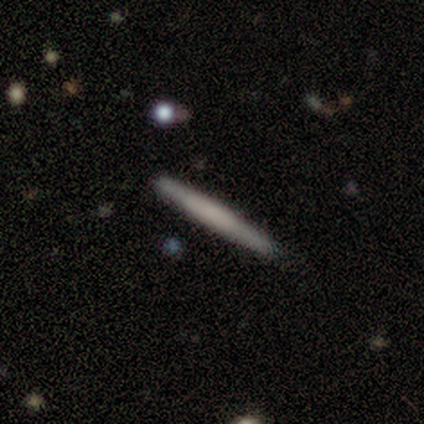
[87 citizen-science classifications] smooth-or-featured: smooth: 52% | featured or disk: 41% | star or artifact: 7%
  how-rounded: cigar-shaped: 100% | round: 0% | in between: 0%
  merging: none: 85% | minor disturbance: 9% | merger: 5% | major disturbance: 1%